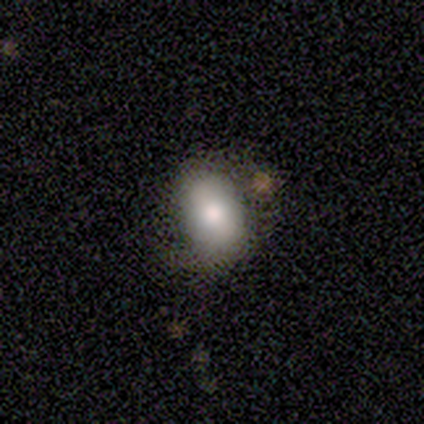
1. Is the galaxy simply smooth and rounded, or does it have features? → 72% smooth, 22% featured or disk, 5% star or artifact.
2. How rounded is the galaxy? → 86% in between, 14% round, 0% cigar-shaped.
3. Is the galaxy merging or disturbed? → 58% none, 8% minor disturbance, 5% merger, 0% major disturbance.